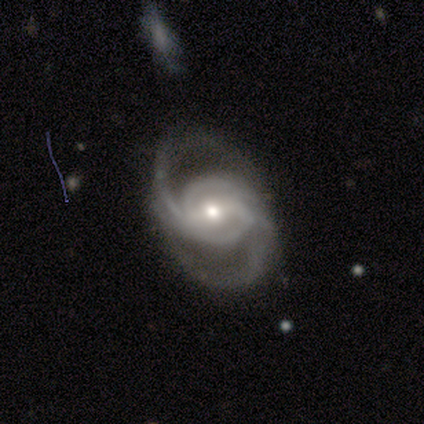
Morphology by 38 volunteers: Volunteers were most divided on "bulge size": moderate: 50%, small: 42%, large: 6%, dominant: 3%, none: 0%. Remaining: edge-on disk — no (100%); spiral arms — yes (97%); smooth or featured — featured or disk (95%); merging — none (76%); spiral winding — medium (63%); spiral arm count — 2 (63%); bar — weak (42%).